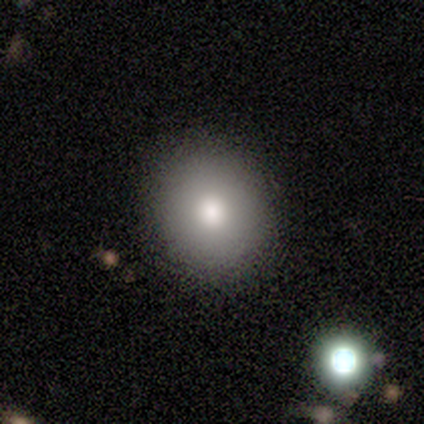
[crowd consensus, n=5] Smooth or featured: smooth — 60% (featured or disk — 40%)
How rounded: round — 67% (in between — 33%)
Merging: none — 80% (minor disturbance — 20%)